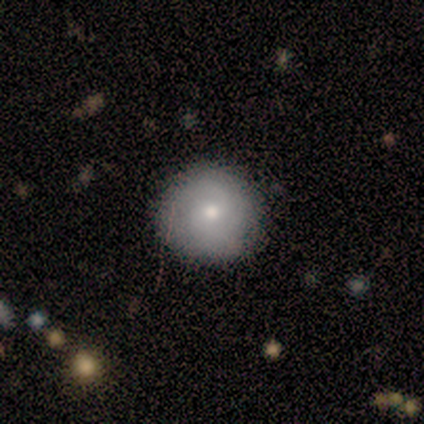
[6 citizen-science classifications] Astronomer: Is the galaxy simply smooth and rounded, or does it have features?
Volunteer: smooth — 67%.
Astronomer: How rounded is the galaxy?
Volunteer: round — 100%.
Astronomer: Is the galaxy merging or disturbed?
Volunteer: none — 100%.